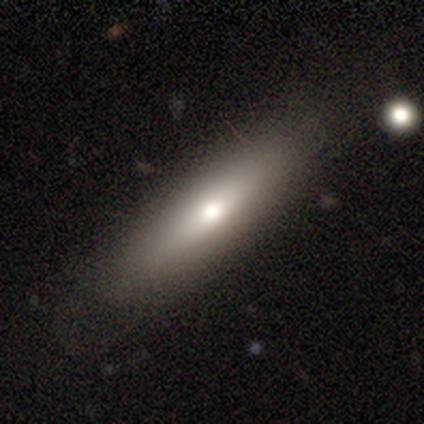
smooth 67%, featured or disk 28%, star or artifact 5%. Down the decision tree: how rounded — cigar-shaped (62%); merging — none (78%).